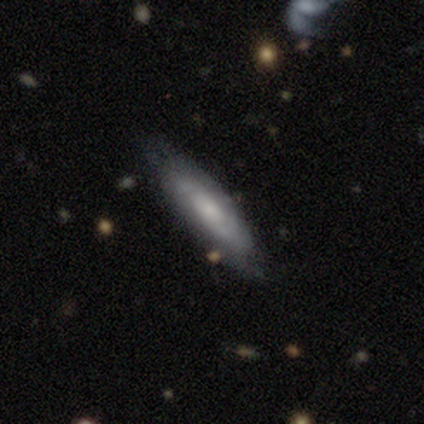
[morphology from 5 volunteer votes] Smooth or featured?
  - smooth: 80% *
  - featured or disk: 20%
  - star or artifact: 0%
How rounded?
  - in between: 50% * (tied)
  - cigar-shaped: 50% * (tied)
  - round: 0%
Merging?
  - none: 80% *
  - minor disturbance: 20%
  - major disturbance: 0%
  - merger: 0%